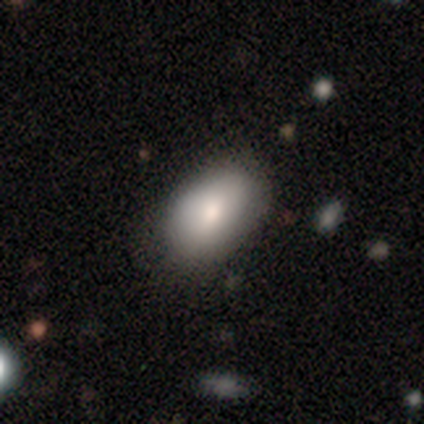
Smooth or featured? smooth (89%)
How rounded? in between (91%)
Merging? none (76%)